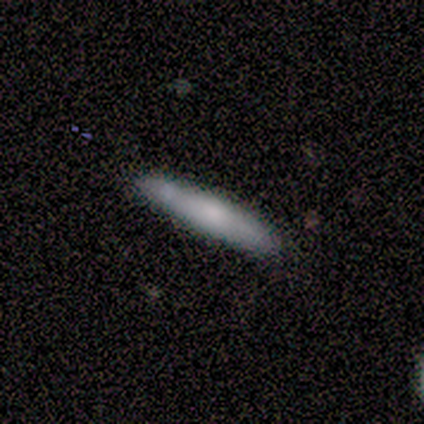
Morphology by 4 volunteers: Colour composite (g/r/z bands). It shows a smooth galaxy with no disk features (75%) that is cigar-shaped (100%). Merging: none (33%, tied with minor disturbance and major disturbance).